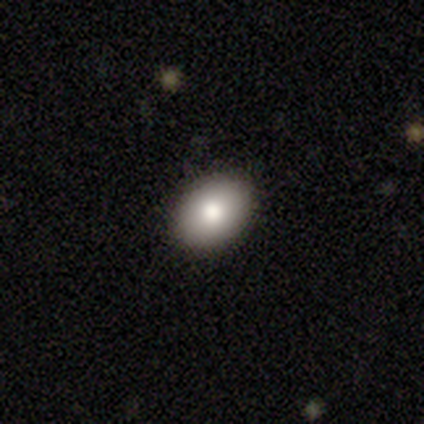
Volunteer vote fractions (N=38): Smooth or featured? smooth (87%)
How rounded? in between (73%)
Merging? none (89%)